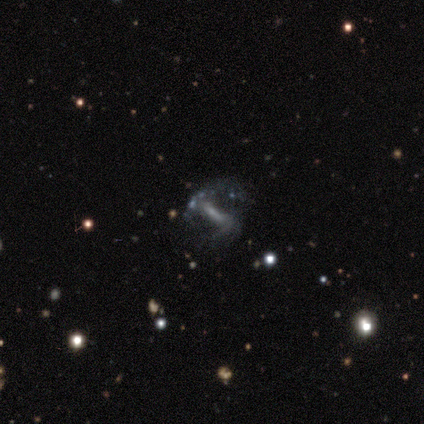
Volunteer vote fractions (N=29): smooth_or_featured: featured or disk (p=0.69) [alt: star or artifact p=0.21]
disk_edge_on: no (p=0.85) [alt: yes p=0.15]
bar: strong (p=0.82) [alt: weak p=0.12]
has_spiral_arms: yes (p=0.65) [alt: no p=0.35]
spiral_winding: medium (p=0.45) [tied with: loose p=0.45]
spiral_arm_count: 2 (p=0.91) [alt: can't tell p=0.09]
bulge_size: small (p=0.41) [alt: moderate p=0.35]
merging: none (p=0.52) [alt: major disturbance p=0.26]